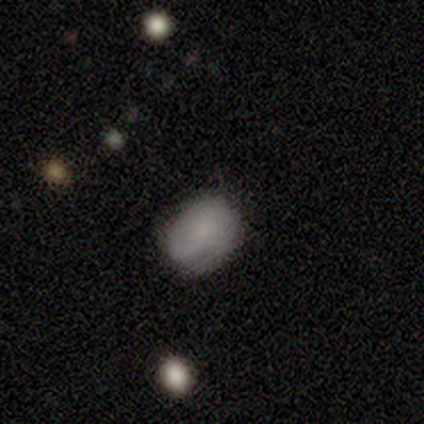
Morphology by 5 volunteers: Overall: smooth (80%). How rounded: in between (75%). Merging: none (80%).